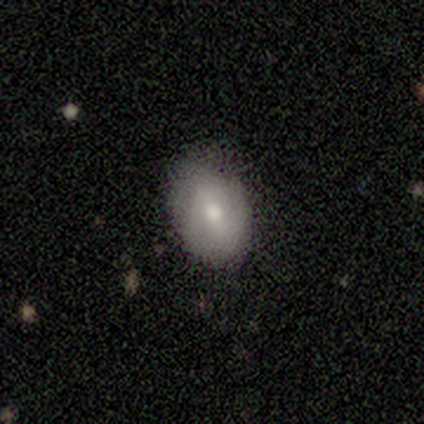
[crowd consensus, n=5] Smooth or featured? 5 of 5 (100%) said smooth. How rounded? 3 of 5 (60%) said round. Merging? 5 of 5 (100%) said none.